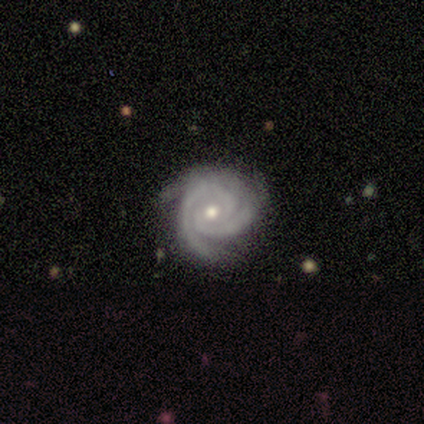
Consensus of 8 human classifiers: smooth_or_featured: featured or disk (p=1.00)
disk_edge_on: no (p=1.00)
bar: no (p=0.88) [alt: strong p=0.12]
has_spiral_arms: yes (p=1.00)
spiral_winding: tight (p=0.88) [alt: medium p=0.12]
spiral_arm_count: 2 (p=0.50) [alt: 3 p=0.38]
bulge_size: moderate (p=0.62) [alt: small p=0.38]
merging: none (p=0.75) [alt: minor disturbance p=0.25]